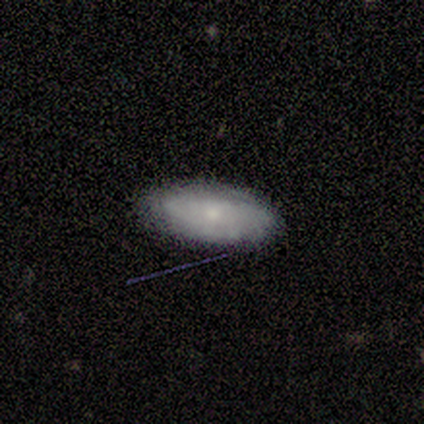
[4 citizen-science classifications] smooth-or-featured: smooth: 50% (tied) | featured or disk: 50% (tied) | star or artifact: 0%
  how-rounded: in between: 100% | round: 0% | cigar-shaped: 0%
  merging: none: 100% | minor disturbance: 0% | major disturbance: 0% | merger: 0%